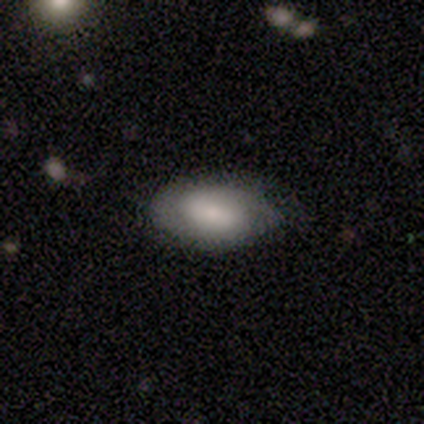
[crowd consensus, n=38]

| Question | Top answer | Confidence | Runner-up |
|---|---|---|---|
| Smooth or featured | smooth | 55% | featured or disk (42%) |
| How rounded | in between | 100% | — |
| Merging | none | 81% | minor disturbance (16%) |